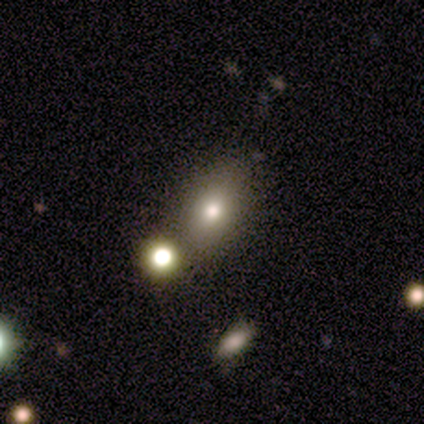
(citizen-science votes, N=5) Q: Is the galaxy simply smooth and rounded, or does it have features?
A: smooth — 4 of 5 (80%).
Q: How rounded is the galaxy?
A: in between — 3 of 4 (75%).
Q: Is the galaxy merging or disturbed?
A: none — 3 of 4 (75%).